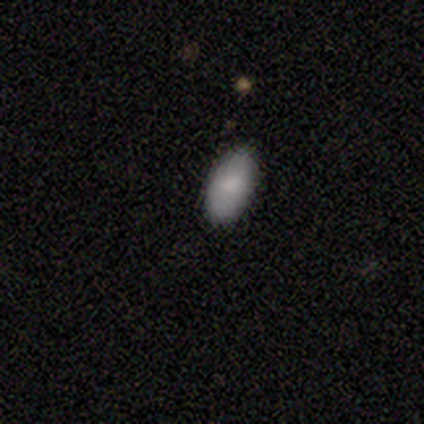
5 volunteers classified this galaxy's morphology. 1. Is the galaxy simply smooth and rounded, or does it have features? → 100% smooth, 0% featured or disk, 0% star or artifact.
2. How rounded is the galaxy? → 100% in between, 0% round, 0% cigar-shaped.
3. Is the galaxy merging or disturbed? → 80% none, 20% minor disturbance, 0% major disturbance, 0% merger.